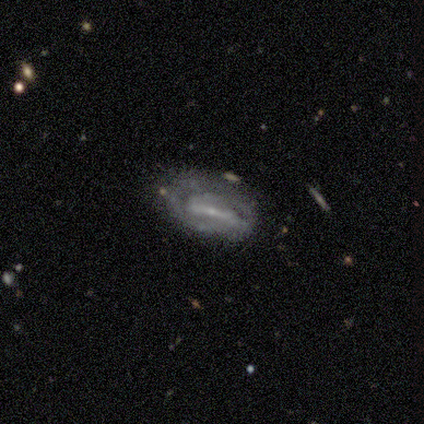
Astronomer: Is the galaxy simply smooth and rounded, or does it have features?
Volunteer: featured or disk — 60% (runner-up: smooth, 40%).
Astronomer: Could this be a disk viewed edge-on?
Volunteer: no — 100%.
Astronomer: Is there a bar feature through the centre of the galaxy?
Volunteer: strong — 67%.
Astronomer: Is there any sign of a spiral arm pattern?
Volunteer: yes — 67%.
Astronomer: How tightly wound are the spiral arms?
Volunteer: tight — 50%, tied with loose at 50%.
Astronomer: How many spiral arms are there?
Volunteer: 2 — 100%.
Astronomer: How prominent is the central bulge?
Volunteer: small — 67%.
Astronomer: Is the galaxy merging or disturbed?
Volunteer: none — 40%, tied with minor disturbance at 40%.